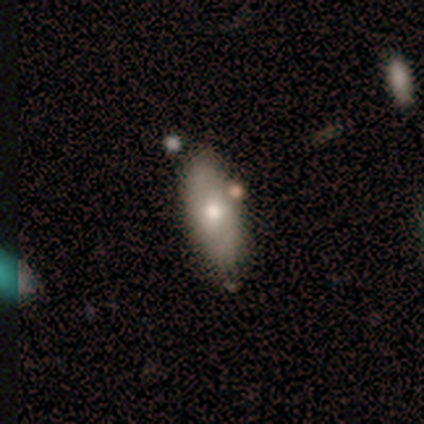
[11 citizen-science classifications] Smooth or featured: smooth — 55% (featured or disk — 27%)
How rounded: in between — 83% (cigar-shaped — 17%)
Merging: none — 89% (major disturbance — 11%)